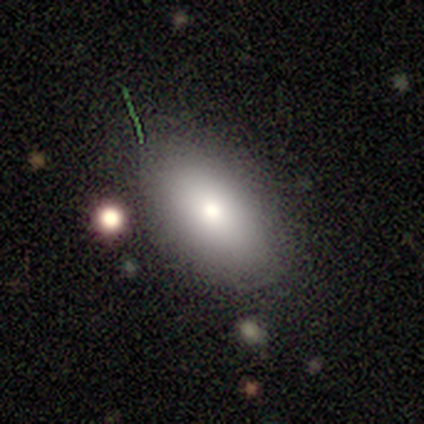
Q: Smooth or featured?
A: smooth (100%)
Q: How rounded?
A: in between (100%)
Q: Merging?
A: none (100%)